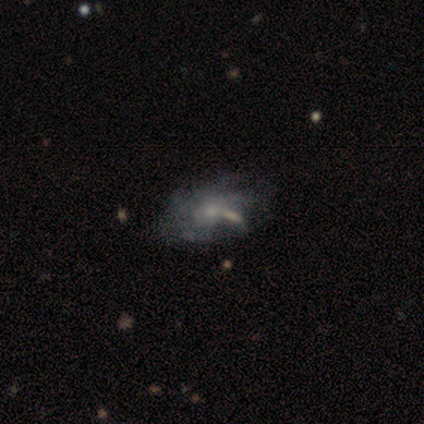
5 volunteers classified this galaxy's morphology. This appears to be a featured or disk galaxy (60%) with no bar (100%), more than 4 (50%, tied with can't tell) tight (50%, tied with loose) spiral arms (67%) and a small central bulge (67%). Merging: none (33%, tied with major disturbance and merger).